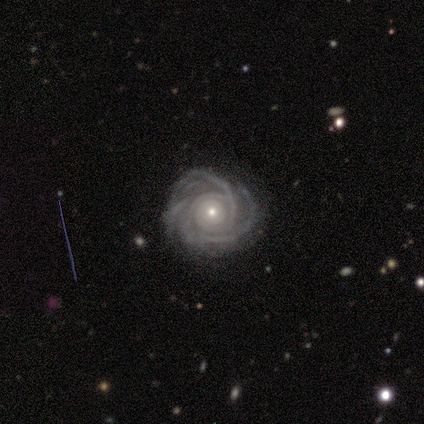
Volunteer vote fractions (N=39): A featured or disk galaxy (87%) with no bar (91%), 3 (50%) tight (81%) spiral arms (97%) and a small central bulge (79%). Merging: none (89%).